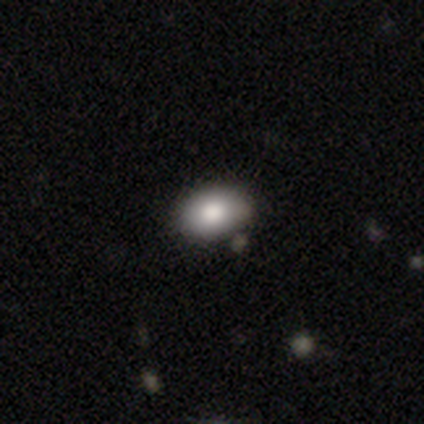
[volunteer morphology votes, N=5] A smooth galaxy with no disk features (100%) that is in between round and cigar-shaped (80%). Merging: none (80%).